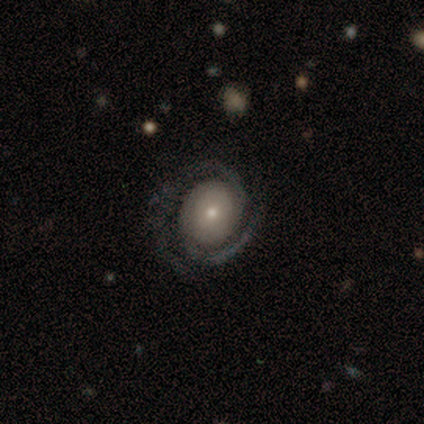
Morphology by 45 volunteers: Smooth or featured?
  - featured or disk: 98% *
  - smooth: 2%
  - star or artifact: 0%
Edge-on disk?
  - no: 100% *
  - yes: 0%
Bar?
  - no: 66% *
  - weak: 25%
  - strong: 9%
Spiral arms?
  - yes: 98% *
  - no: 2%
Spiral winding?
  - tight: 65% *
  - medium: 30%
  - loose: 5%
Spiral arm count?
  - 2: 93% *
  - can't tell: 5%
  - 3: 2%
  - 1: 0%
  - 4: 0%
  - more than 4: 0%
Bulge size?
  - small: 61% *
  - moderate: 25%
  - large: 9%
  - dominant: 2%
  - none: 2%
Merging?
  - none: 87% *
  - major disturbance: 7%
  - minor disturbance: 4%
  - merger: 2%